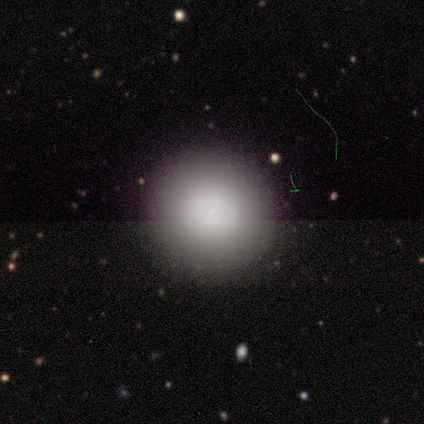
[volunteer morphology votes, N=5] smooth-or-featured: smooth: 60% | featured or disk: 40% | star or artifact: 0%
  how-rounded: round: 100% | in between: 0% | cigar-shaped: 0%
  merging: none: 60% | minor disturbance: 20% | major disturbance: 20% | merger: 0%